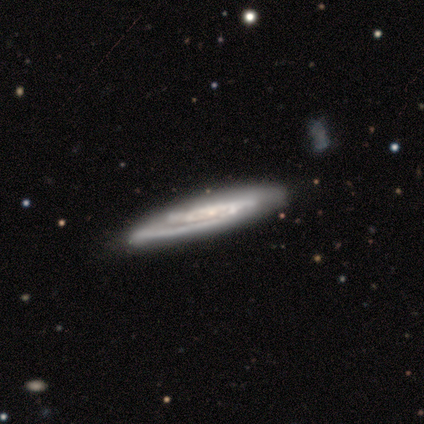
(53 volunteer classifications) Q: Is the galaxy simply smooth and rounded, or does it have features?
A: featured or disk — 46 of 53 (87%).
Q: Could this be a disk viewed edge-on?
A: no — 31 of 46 (67%).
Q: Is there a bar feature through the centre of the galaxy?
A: no — 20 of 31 (65%).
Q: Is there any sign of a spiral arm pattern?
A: yes — 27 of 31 (87%).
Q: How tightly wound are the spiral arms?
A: tight — 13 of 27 (48%).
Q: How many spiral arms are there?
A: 2 — 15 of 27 (56%).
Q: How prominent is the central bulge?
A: small — 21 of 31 (68%).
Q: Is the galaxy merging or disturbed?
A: none — 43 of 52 (83%).